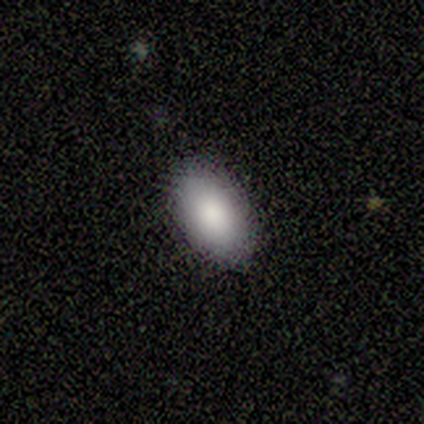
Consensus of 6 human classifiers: Q: Smooth or featured?
A: smooth (100%)
Q: How rounded?
A: in between (100%)
Q: Merging?
A: none (100%)